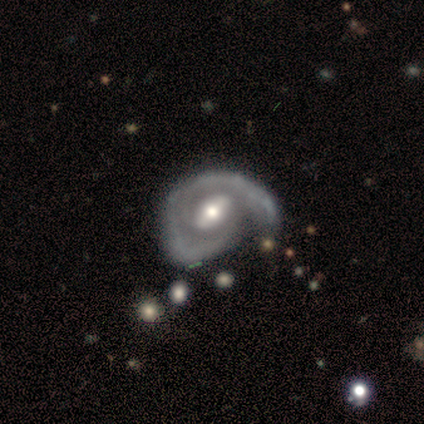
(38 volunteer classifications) Q: Smooth or featured?
A: featured or disk (92%); runner-up: star or artifact (8%)
Q: Edge-on disk?
A: no (100%)
Q: Bar?
A: weak (54%); runner-up: strong (23%)
Q: Spiral arms?
A: yes (94%); runner-up: no (6%)
Q: Spiral winding?
A: tight (42%); tied with: medium (42%)
Q: Spiral arm count?
A: 1 (45%); runner-up: 2 (33%)
Q: Bulge size?
A: moderate (60%); runner-up: small (26%)
Q: Merging?
A: none (34%); tied with: major disturbance (34%)